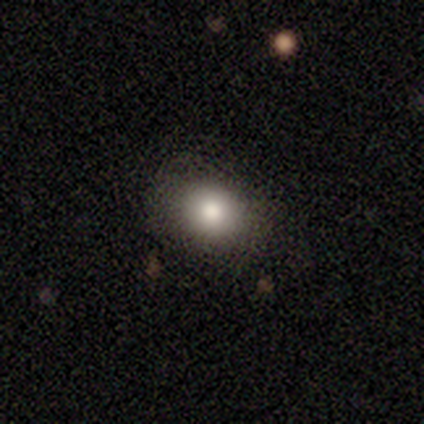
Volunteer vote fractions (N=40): A smooth galaxy with no disk features (78%) that is round (52%). Merging: none (91%).